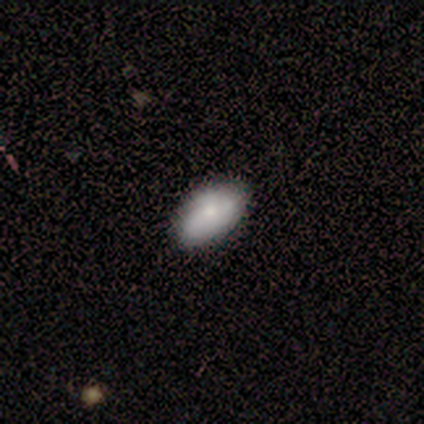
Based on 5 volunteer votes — Overall: smooth (80%). How rounded: in between (100%). Merging: none (60%; minor disturbance 40%).